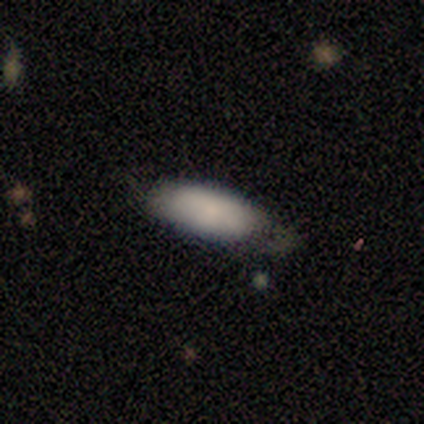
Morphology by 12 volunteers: smooth_or_featured: smooth (p=0.83) [alt: featured or disk p=0.08]
how_rounded: in between (p=0.80) [alt: cigar-shaped p=0.20]
merging: minor disturbance (p=0.55) [alt: none p=0.27]